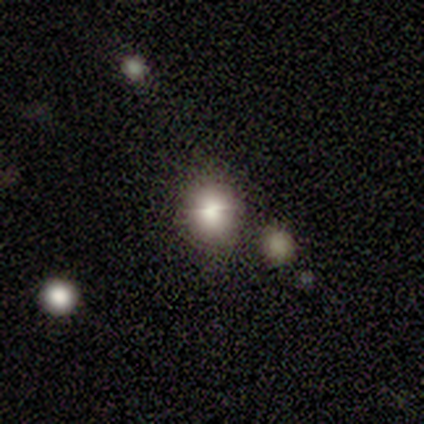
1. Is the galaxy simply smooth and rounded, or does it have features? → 80% smooth, 20% featured or disk, 0% star or artifact.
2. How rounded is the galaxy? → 50% round (tied), 50% in between (tied), 0% cigar-shaped.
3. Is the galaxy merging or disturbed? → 60% none, 20% minor disturbance, 20% merger, 0% major disturbance.